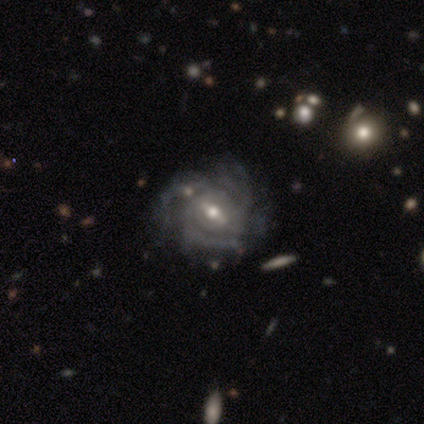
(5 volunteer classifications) smooth-or-featured: featured or disk: 100% | smooth: 0% | star or artifact: 0%
  disk-edge-on: no: 100% | yes: 0%
    bar: weak: 60% | no: 40% | strong: 0%
    has-spiral-arms: yes: 100% | no: 0%
      spiral-winding: tight: 100% | medium: 0% | loose: 0%
      spiral-arm-count: 4: 60% | 3: 20% | can't tell: 20% | 1: 0% | 2: 0% | more than 4: 0%
    bulge-size: small: 80% | moderate: 20% | dominant: 0% | large: 0% | none: 0%
  merging: none: 100% | minor disturbance: 0% | major disturbance: 0% | merger: 0%